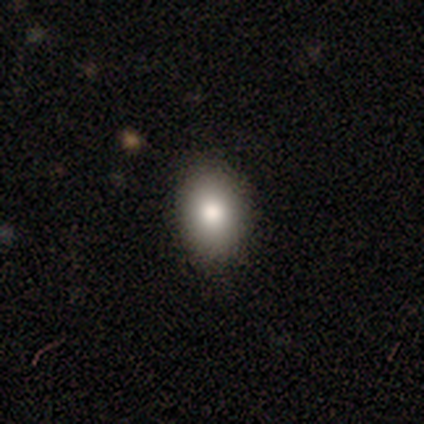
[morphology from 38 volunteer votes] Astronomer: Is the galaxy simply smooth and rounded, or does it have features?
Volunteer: smooth — 87%.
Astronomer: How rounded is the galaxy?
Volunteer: in between — 76%.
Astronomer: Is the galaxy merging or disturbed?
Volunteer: none — 95%.